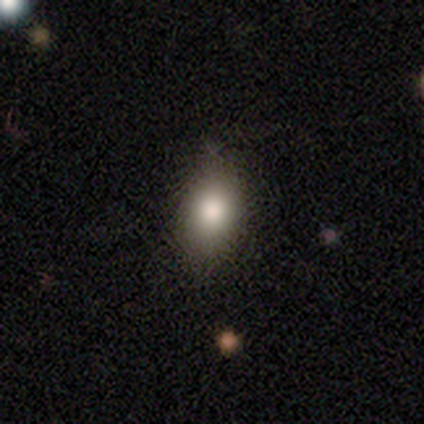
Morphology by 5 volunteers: smooth_or_featured: smooth (p=1.00)
how_rounded: in between (p=0.80) [alt: round p=0.20]
merging: none (p=0.80) [alt: minor disturbance p=0.20]